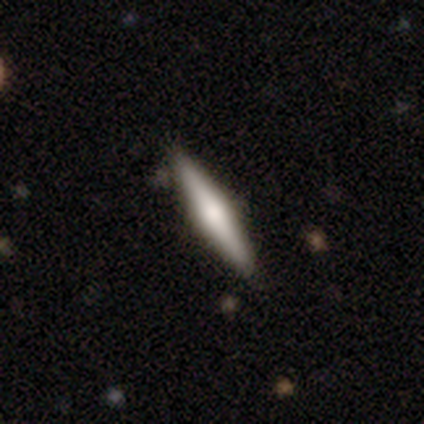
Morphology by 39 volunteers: smooth_or_featured: featured or disk (p=0.51) [alt: smooth p=0.49]
disk_edge_on: yes (p=1.00)
edge_on_bulge: rounded (p=0.95) [alt: none p=0.05]
merging: none (p=0.90) [alt: minor disturbance p=0.08]